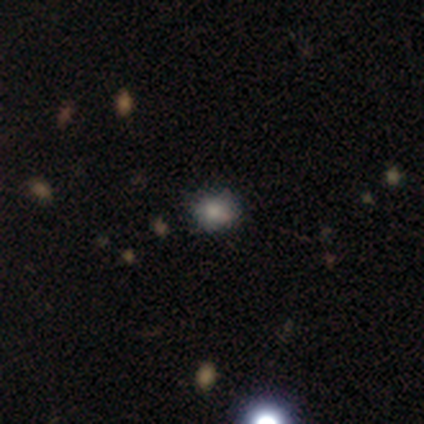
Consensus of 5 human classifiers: Smooth or featured?
  - smooth: 60% *
  - star or artifact: 40%
  - featured or disk: 0%
How rounded?
  - round: 100% *
  - in between: 0%
  - cigar-shaped: 0%
Merging?
  - none: 67% *
  - minor disturbance: 33%
  - major disturbance: 0%
  - merger: 0%